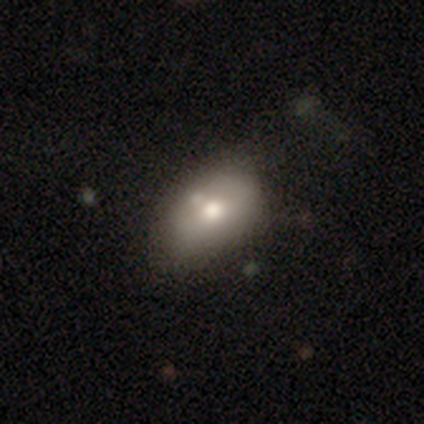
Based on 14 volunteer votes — A smooth galaxy with no disk features (71%) that is in between round and cigar-shaped (90%). Merging: none (67%).